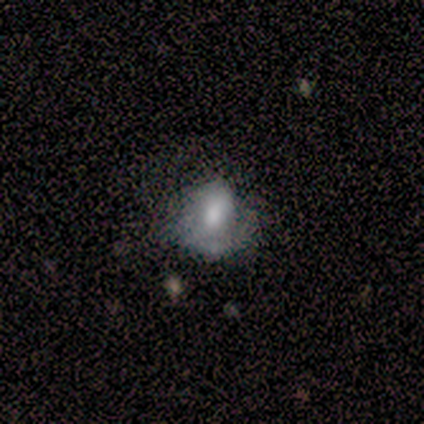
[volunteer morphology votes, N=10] Smooth or featured? 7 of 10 (70%) said smooth. How rounded? 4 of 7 (57%) said in between. Merging? 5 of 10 (50%, tied with major disturbance) said none.